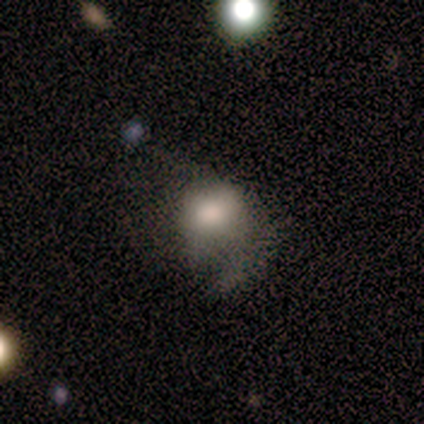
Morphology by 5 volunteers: Smooth or featured?
  - smooth: 60% *
  - featured or disk: 40%
  - star or artifact: 0%
How rounded?
  - in between: 67% *
  - round: 33%
  - cigar-shaped: 0%
Merging?
  - minor disturbance: 40% * (tied)
  - major disturbance: 40% * (tied)
  - none: 20%
  - merger: 0%